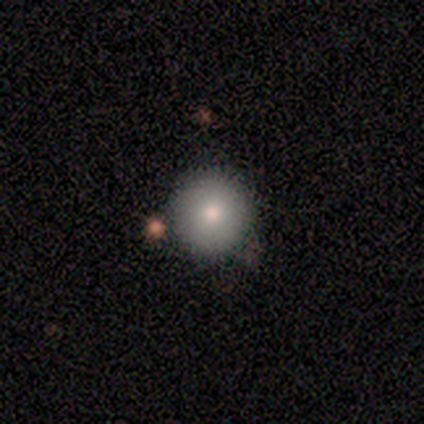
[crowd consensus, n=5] Volunteers were most divided on "smooth or featured": smooth: 60%, featured or disk: 20%, star or artifact: 20%. More confident: how rounded — round (100%); merging — none (75%).